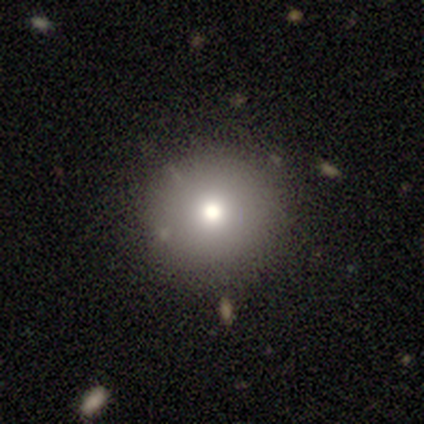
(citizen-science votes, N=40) Smooth or featured? 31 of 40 (78%) said smooth. How rounded? 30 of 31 (97%) said round. Merging? 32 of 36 (89%) said none.